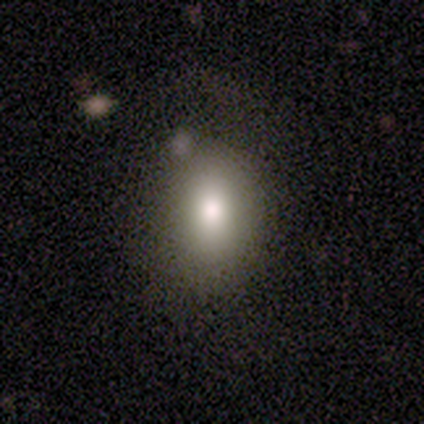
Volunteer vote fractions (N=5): A smooth galaxy with no disk features (100%) that is in between round and cigar-shaped (80%).

Vote fractions:
- Smooth or featured? smooth: 100% / featured or disk: 0% / star or artifact: 0%
- How rounded? in between: 80% / round: 20% / cigar-shaped: 0%
- Merging? none: 40% (tied) / major disturbance: 40% (tied) / minor disturbance: 20% / merger: 0%